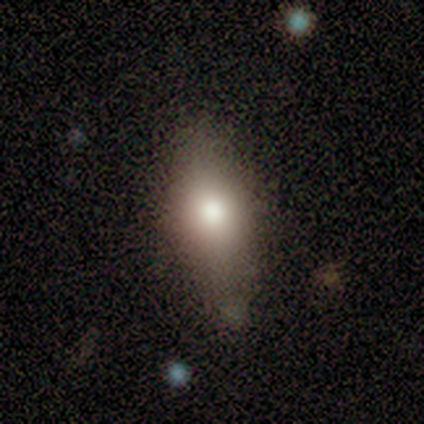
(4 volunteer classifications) Smooth or featured? smooth (50%, tied with star or artifact)
How rounded? in between (50%, tied with cigar-shaped)
Merging? none (50%, tied with minor disturbance)